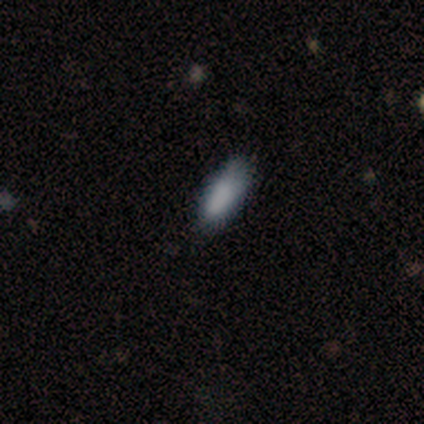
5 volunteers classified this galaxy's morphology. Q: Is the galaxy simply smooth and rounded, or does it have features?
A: smooth — 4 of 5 (80%).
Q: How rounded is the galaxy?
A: in between — 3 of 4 (75%).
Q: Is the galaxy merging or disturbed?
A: none — 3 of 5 (60%).